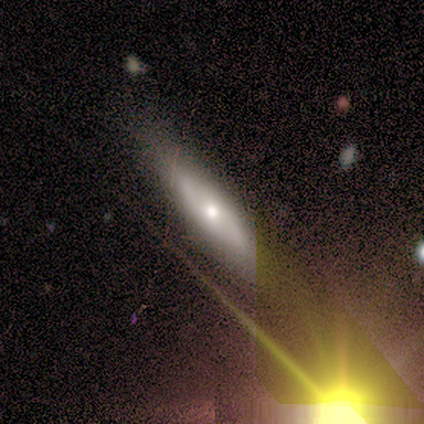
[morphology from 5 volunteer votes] Smooth or featured: featured or disk — 40% (tied with star or artifact — 40%)
Edge-on disk: yes — 100%
Edge-on bulge: rounded — 100%
Merging: none — 100%